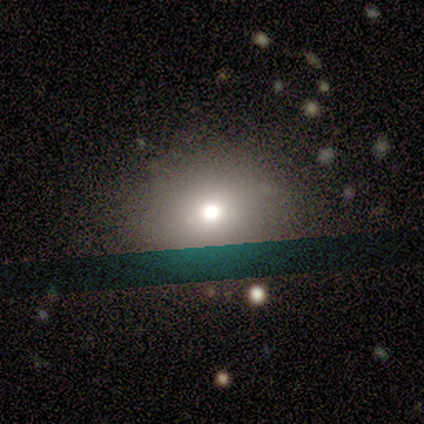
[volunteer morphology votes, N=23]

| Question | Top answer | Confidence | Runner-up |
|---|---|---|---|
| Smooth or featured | smooth | 65% | featured or disk (22%) |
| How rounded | round | 87% | in between (13%) |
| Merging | merger | 25% | none (20%) |